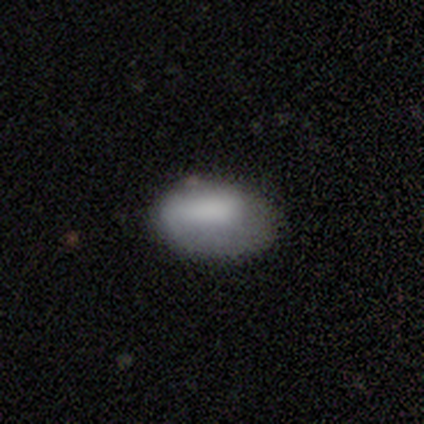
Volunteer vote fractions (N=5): Smooth or featured? smooth (100%)
How rounded? in between (100%)
Merging? none (80%)